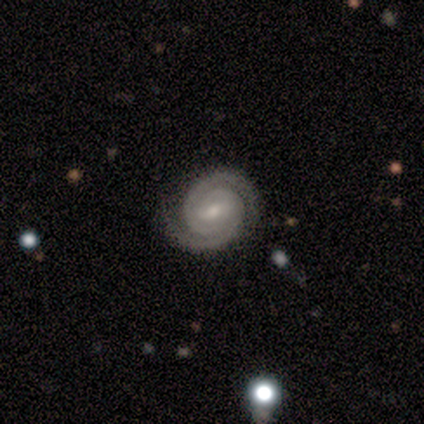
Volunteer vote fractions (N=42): This is clearly a featured or disk galaxy (93%). It is clearly not viewed edge-on (97%). Bar: likely weak (63%). Spiral arm pattern: clearly yes (95%). Spiral arm count: clearly 2 (89%). Spiral winding: clearly tight (86%). Central bulge: likely small (68%). Merging: likely none (79%).